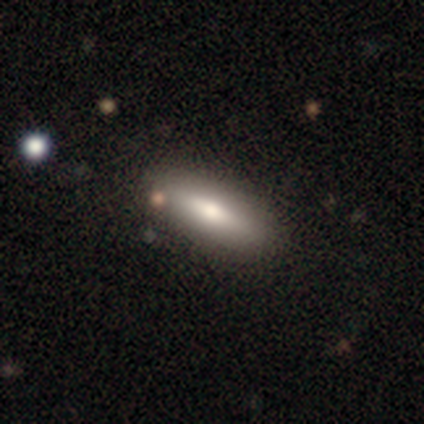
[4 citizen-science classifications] smooth_or_featured: smooth (p=0.75) [alt: featured or disk p=0.25]
how_rounded: cigar-shaped (p=0.67) [alt: in between p=0.33]
merging: none (p=0.75) [alt: minor disturbance p=0.25]